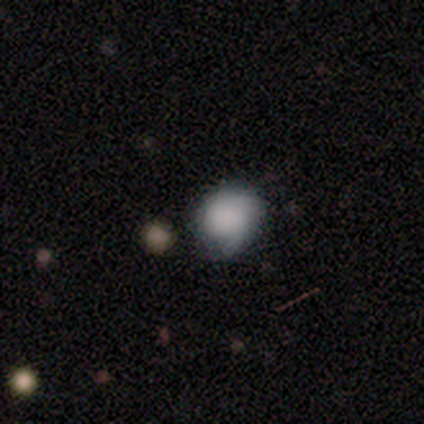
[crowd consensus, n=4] Smooth or featured? featured or disk (50%)
Edge-on disk? no (100%)
Bar? no (100%)
Spiral arms? yes (50%, tied with no)
Spiral winding? medium (100%)
Spiral arm count? 2 (100%)
Bulge size? dominant (50%, tied with large)
Merging? none (67%)